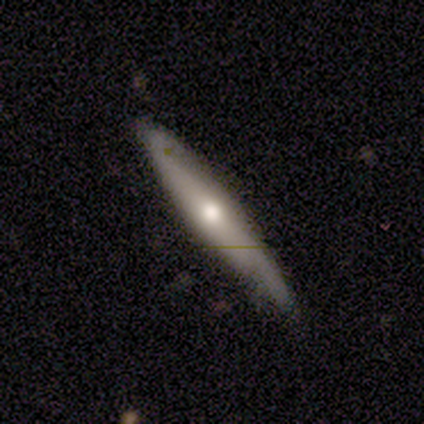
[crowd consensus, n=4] smooth-or-featured: featured or disk: 100% | smooth: 0% | star or artifact: 0%
  disk-edge-on: yes: 100% | no: 0%
    edge-on-bulge: rounded: 100% | boxy: 0% | none: 0%
  merging: none: 100% | minor disturbance: 0% | major disturbance: 0% | merger: 0%